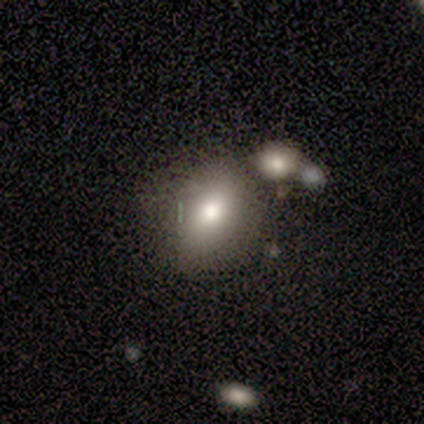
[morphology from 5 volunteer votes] Volunteers were most divided on "how rounded": in between: 80%, round: 20%, cigar-shaped: 0%. More confident: smooth or featured — smooth (100%); merging — none (80%).